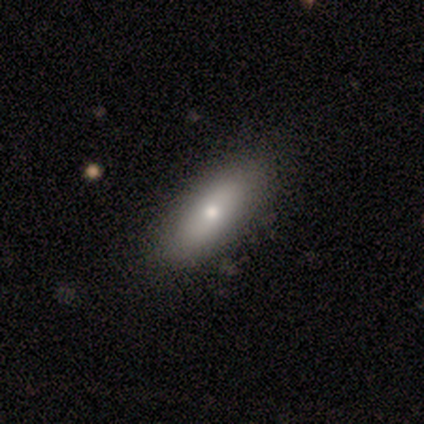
smooth-or-featured: smooth: 100% | featured or disk: 0% | star or artifact: 0%
  how-rounded: in between: 50% (tied) | cigar-shaped: 50% (tied) | round: 0%
  merging: none: 75% | minor disturbance: 25% | major disturbance: 0% | merger: 0%